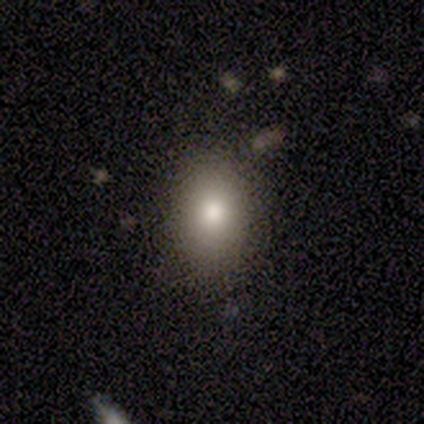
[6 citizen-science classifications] smooth-or-featured: smooth: 67% | featured or disk: 17% | star or artifact: 17%
  how-rounded: in between: 100% | round: 0% | cigar-shaped: 0%
  merging: minor disturbance: 60% | none: 40% | major disturbance: 0% | merger: 0%